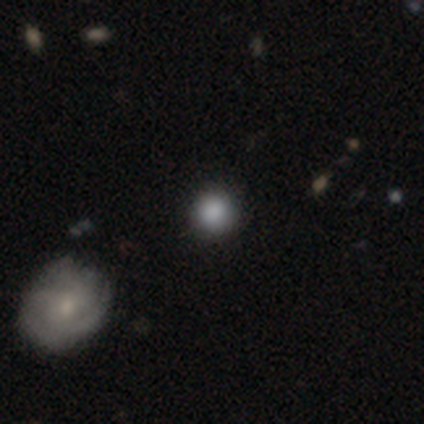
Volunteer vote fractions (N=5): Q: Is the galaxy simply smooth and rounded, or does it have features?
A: smooth — 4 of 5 (80%).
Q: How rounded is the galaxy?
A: round — 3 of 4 (75%).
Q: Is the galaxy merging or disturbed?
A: none — 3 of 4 (75%).